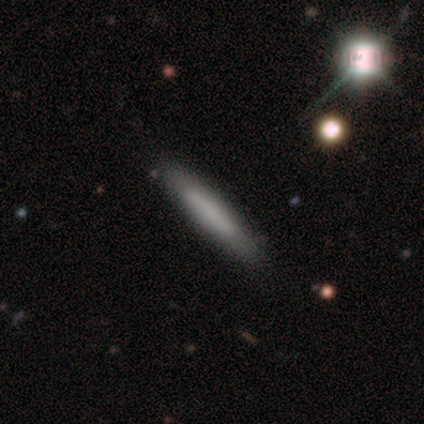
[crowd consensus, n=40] Smooth or featured?
  - smooth: 62% *
  - featured or disk: 30%
  - star or artifact: 8%
How rounded?
  - cigar-shaped: 100% *
  - round: 0%
  - in between: 0%
Merging?
  - none: 65% *
  - merger: 8%
  - minor disturbance: 3%
  - major disturbance: 0%